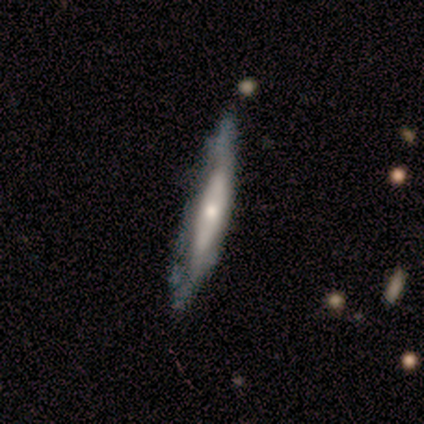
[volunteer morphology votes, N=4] Smooth or featured? smooth (100%)
How rounded? cigar-shaped (100%)
Merging? none (75%)